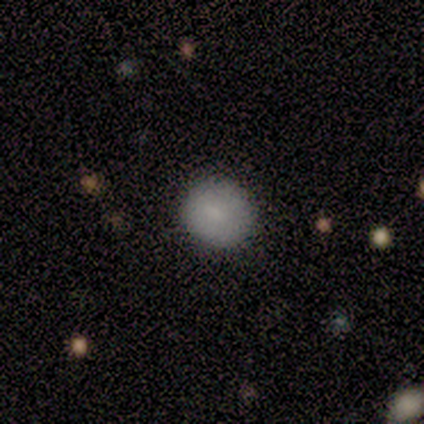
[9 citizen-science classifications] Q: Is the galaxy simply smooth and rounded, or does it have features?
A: smooth — 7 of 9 (78%).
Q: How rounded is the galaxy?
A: round — 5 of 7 (71%).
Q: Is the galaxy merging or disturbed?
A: none — 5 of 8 (62%).